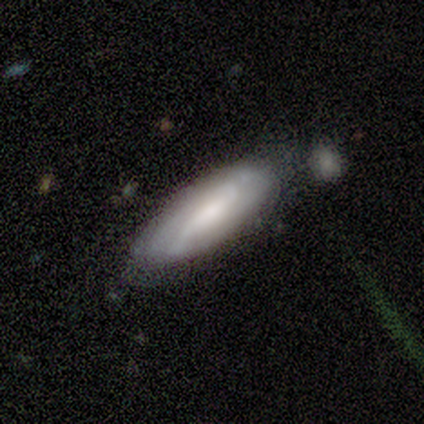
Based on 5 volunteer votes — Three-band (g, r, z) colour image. It shows a smooth galaxy with no disk features (60%) that is cigar-shaped (67%). Merging: minor disturbance (60%).